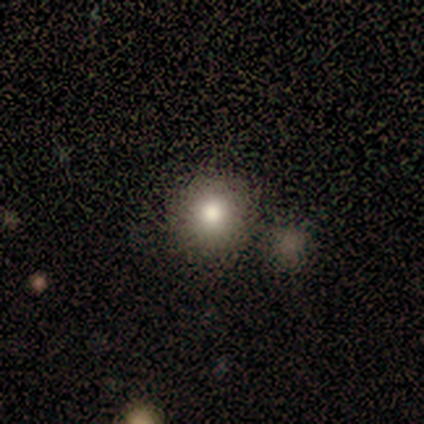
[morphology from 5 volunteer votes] smooth 100%, featured or disk 0%, star or artifact 0%. Down the decision tree: how rounded — round (100%); merging — none (60%).